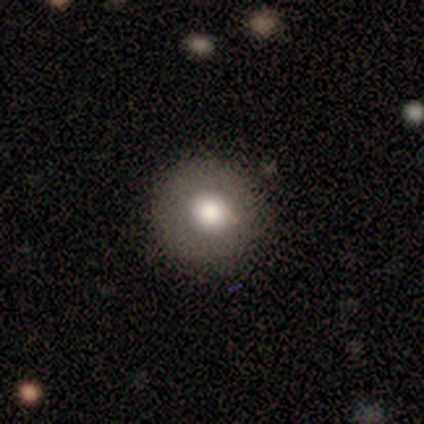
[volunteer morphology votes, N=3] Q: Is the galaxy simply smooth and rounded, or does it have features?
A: smooth — 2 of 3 (67%).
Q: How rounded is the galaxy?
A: round — 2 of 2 (100%).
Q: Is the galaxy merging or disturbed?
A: none — 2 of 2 (100%).